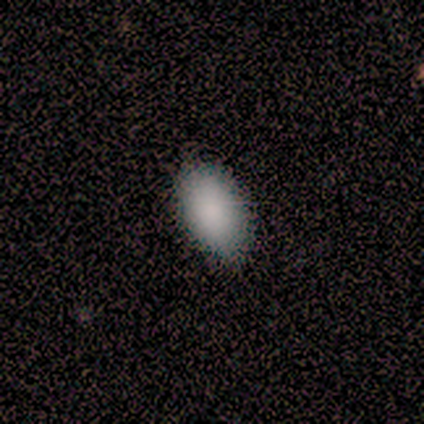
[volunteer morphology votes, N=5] This is clearly a smooth galaxy (100%). How rounded: clearly in between (100%). Merging: clearly none (100%).